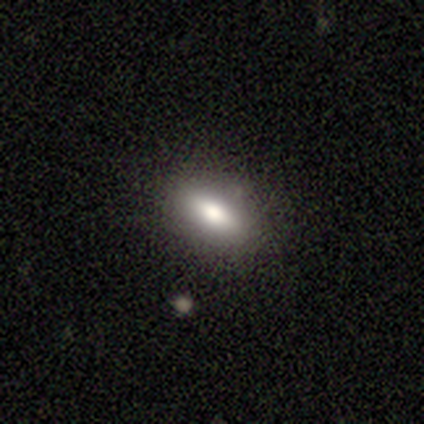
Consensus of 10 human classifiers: Q: Smooth or featured?
A: smooth (60%); runner-up: featured or disk (30%)
Q: How rounded?
A: in between (83%); runner-up: cigar-shaped (17%)
Q: Merging?
A: none (89%); runner-up: minor disturbance (11%)